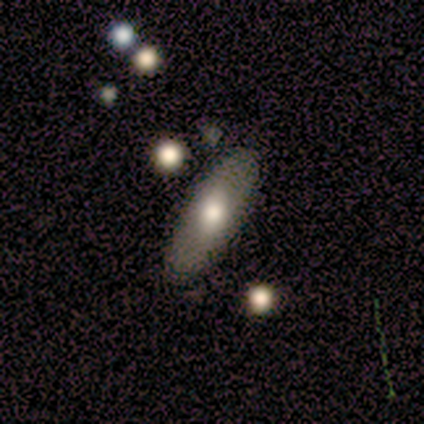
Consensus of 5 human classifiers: Morphology: type=smooth (80%); roundness=in between (50%, tied with cigar-shaped); merging=none (80%).